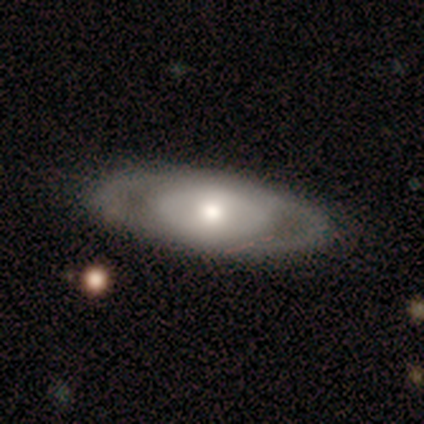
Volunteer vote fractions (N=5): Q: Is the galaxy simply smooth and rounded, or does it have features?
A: smooth — 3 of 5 (60%).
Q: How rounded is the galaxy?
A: in between — 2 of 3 (67%).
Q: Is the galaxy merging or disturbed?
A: none — 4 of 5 (80%).